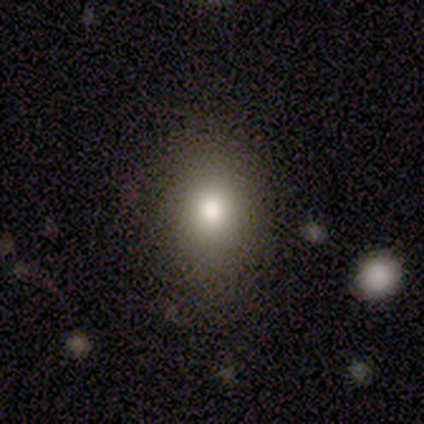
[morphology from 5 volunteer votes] Q: Smooth or featured?
A: smooth (100%)
Q: How rounded?
A: in between (60%); runner-up: round (20%)
Q: Merging?
A: none (60%); runner-up: minor disturbance (40%)